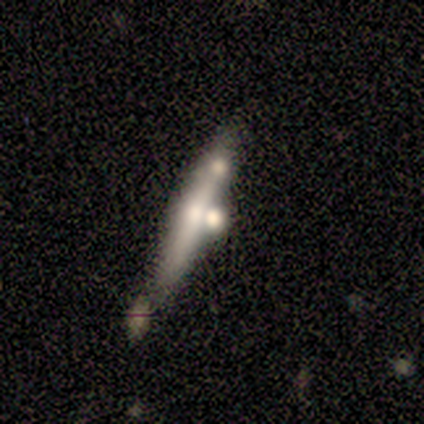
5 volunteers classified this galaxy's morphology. Smooth or featured?
  - smooth: 60% *
  - featured or disk: 40%
  - star or artifact: 0%
How rounded?
  - cigar-shaped: 100% *
  - round: 0%
  - in between: 0%
Merging?
  - none: 40% *
  - minor disturbance: 20%
  - major disturbance: 20%
  - merger: 20%